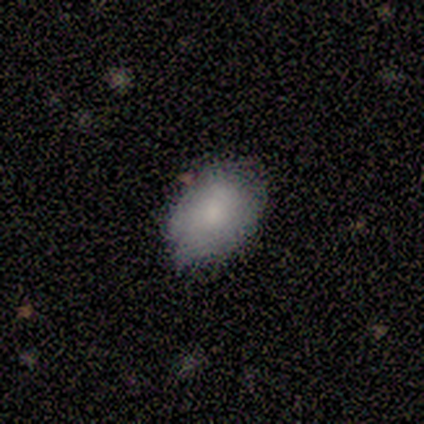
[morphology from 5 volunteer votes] Q: Smooth or featured?
A: smooth (60%); runner-up: featured or disk (40%)
Q: How rounded?
A: in between (100%)
Q: Merging?
A: none (80%); runner-up: minor disturbance (20%)